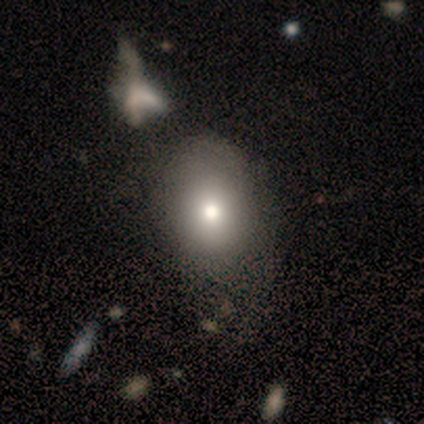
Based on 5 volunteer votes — smooth_or_featured: smooth (p=0.80) [alt: featured or disk p=0.20]
how_rounded: in between (p=0.75) [alt: round p=0.25]
merging: minor disturbance (p=0.60) [alt: none p=0.20]